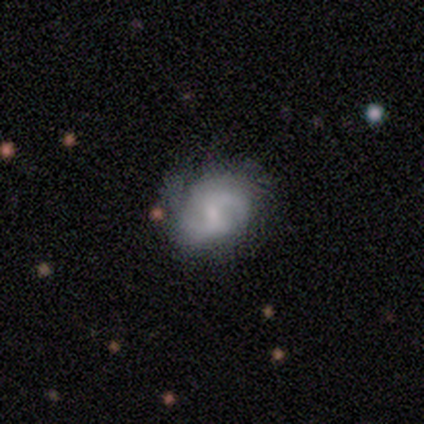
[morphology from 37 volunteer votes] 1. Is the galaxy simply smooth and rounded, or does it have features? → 78% featured or disk, 16% smooth, 5% star or artifact.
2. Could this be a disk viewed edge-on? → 100% no, 0% yes.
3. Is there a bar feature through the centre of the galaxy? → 66% weak, 28% no, 7% strong.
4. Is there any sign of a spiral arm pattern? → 93% yes, 7% no.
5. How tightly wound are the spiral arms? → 48% medium, 30% tight, 22% loose.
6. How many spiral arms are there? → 78% 2, 19% can't tell, 4% 3, 0% 1, 0% 4, 0% more than 4.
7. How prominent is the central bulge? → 76% small, 14% moderate, 10% none, 0% dominant, 0% large.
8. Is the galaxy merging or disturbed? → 66% none, 23% minor disturbance, 6% major disturbance, 6% merger.